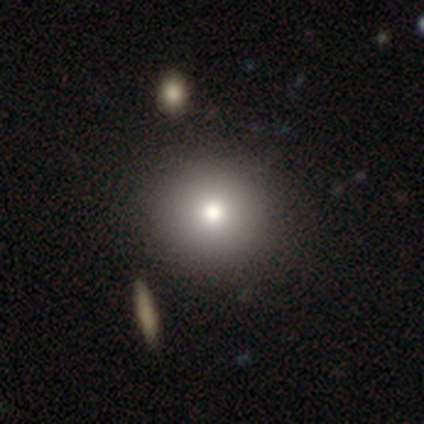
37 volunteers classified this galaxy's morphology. This is clearly a smooth galaxy (89%). How rounded: clearly round (88%). Merging: clearly none (86%).